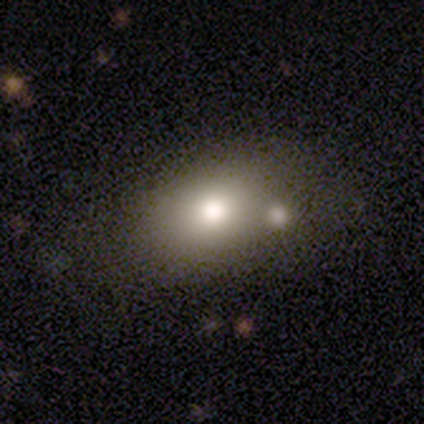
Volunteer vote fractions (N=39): Morphology: type=smooth (77%); roundness=in between (70%); merging=none (57%).